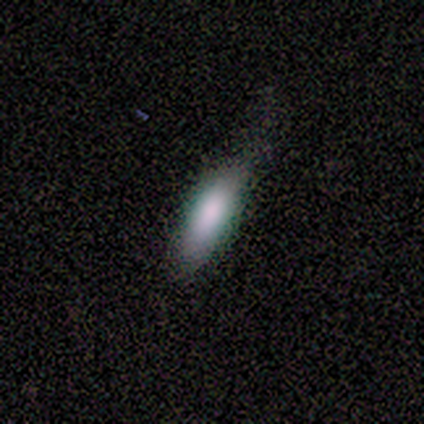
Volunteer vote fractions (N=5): Q: Smooth or featured?
A: smooth (100%)
Q: How rounded?
A: in between (100%)
Q: Merging?
A: none (80%); runner-up: minor disturbance (20%)